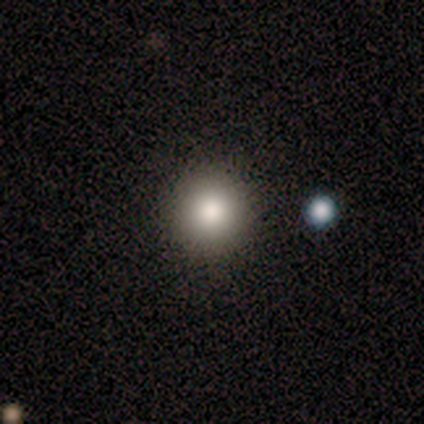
A smooth galaxy with no disk features (100%) that is round (100%). Merging: none (83%).